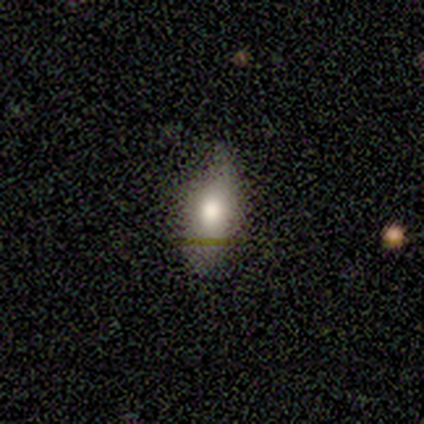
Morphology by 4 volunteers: Smooth or featured? smooth (100%)
How rounded? in between (100%)
Merging? none (75%)